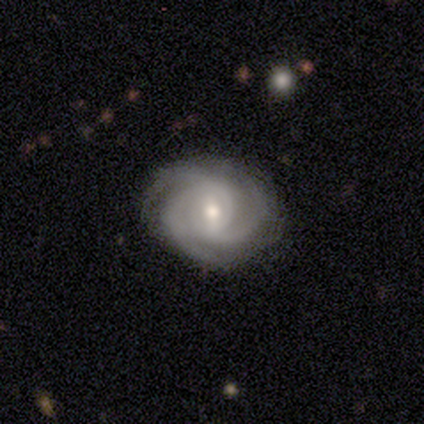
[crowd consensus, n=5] Smooth or featured? 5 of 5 (100%) said featured or disk. Edge-on disk? 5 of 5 (100%) said no. Bar? 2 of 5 (40%, tied with weak) said strong. Spiral arms? 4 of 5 (80%) said yes. Spiral winding? 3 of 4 (75%) said tight. Spiral arm count? 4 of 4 (100%) said 3. Bulge size? 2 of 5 (40%, tied with small) said moderate. Merging? 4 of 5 (80%) said none.